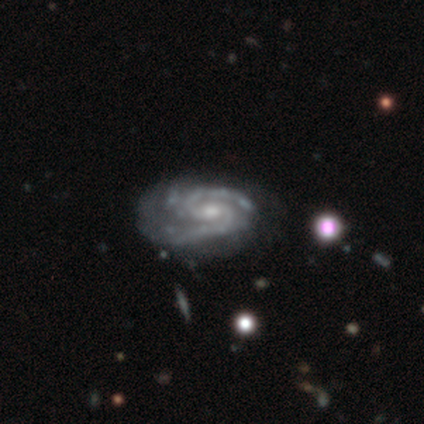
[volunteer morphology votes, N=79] featured or disk 95%, smooth 3%, star or artifact 3%. Down the decision tree: edge-on disk — no (97%); bar — no (53%); spiral arms — yes (97%); spiral arm count — 2 (70%); spiral winding — medium (49%); bulge size — moderate (52%); merging — none (23%).